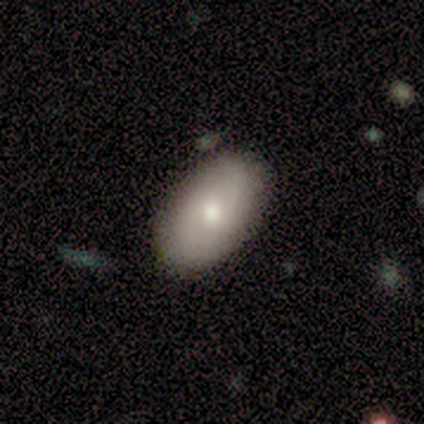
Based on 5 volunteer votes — Smooth or featured? 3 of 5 (60%) said smooth. How rounded? 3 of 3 (100%) said in between. Merging? 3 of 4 (75%) said none.